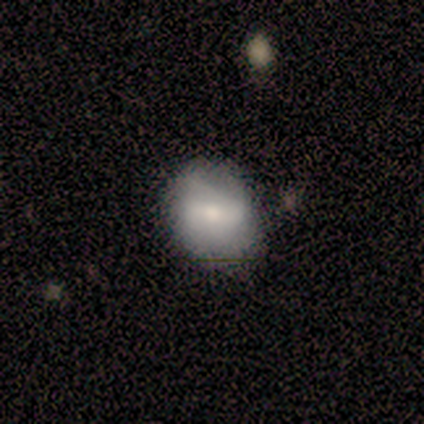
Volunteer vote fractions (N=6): Q: Smooth or featured?
A: smooth (67%); runner-up: featured or disk (33%)
Q: How rounded?
A: round (75%); runner-up: in between (25%)
Q: Merging?
A: none (67%); runner-up: minor disturbance (33%)